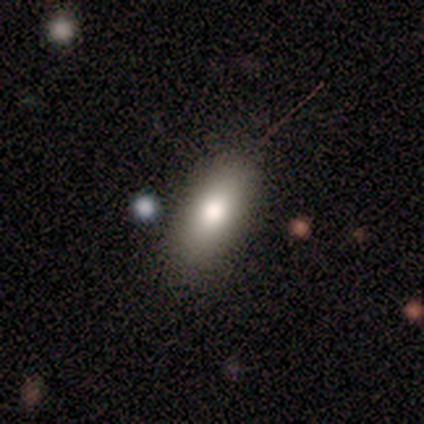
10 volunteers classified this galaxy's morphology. A smooth galaxy with no disk features (60%) that is in between round and cigar-shaped (83%). Merging: none (60%).